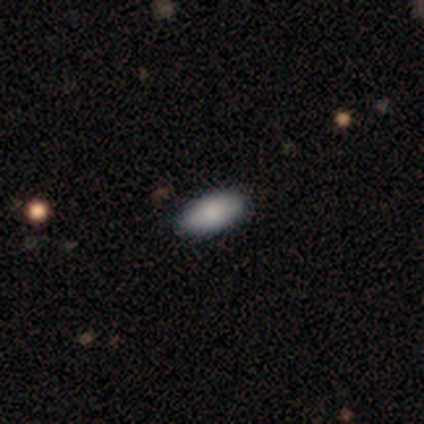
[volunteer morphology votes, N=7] A smooth galaxy with no disk features (71%) that is in between round and cigar-shaped (100%).

Vote fractions:
- Smooth or featured? smooth: 71% / featured or disk: 14% / star or artifact: 14%
- How rounded? in between: 100% / round: 0% / cigar-shaped: 0%
- Merging? none: 100% / minor disturbance: 0% / major disturbance: 0% / merger: 0%